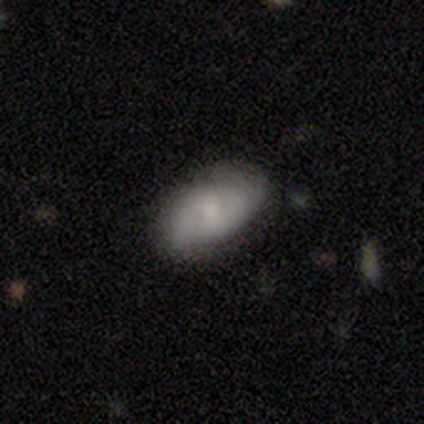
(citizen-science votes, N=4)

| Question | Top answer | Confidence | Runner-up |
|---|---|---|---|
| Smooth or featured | featured or disk | 100% | — |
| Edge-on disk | no | 100% | — |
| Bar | no | 100% | — |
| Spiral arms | yes | 50% | tied: no (50%) |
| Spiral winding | tight | 50% | tied: loose (50%) |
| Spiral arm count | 2 | 100% | — |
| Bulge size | moderate | 75% | small (25%) |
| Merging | none | 75% | minor disturbance (25%) |